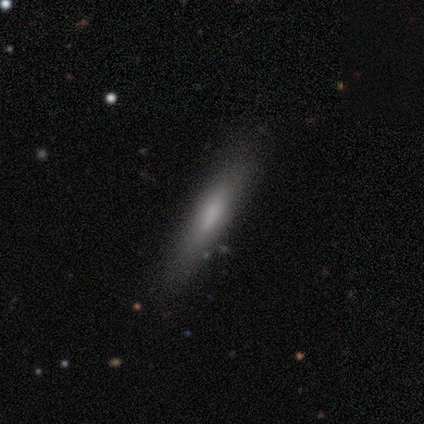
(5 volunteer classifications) smooth-or-featured: featured or disk: 60% | smooth: 40% | star or artifact: 0%
  disk-edge-on: no: 67% | yes: 33%
    bar: weak: 50% (tied) | no: 50% (tied) | strong: 0%
    has-spiral-arms: no: 100% | yes: 0%
    bulge-size: moderate: 50% (tied) | none: 50% (tied) | dominant: 0% | large: 0% | small: 0%
  merging: none: 60% | minor disturbance: 20% | merger: 20% | major disturbance: 0%